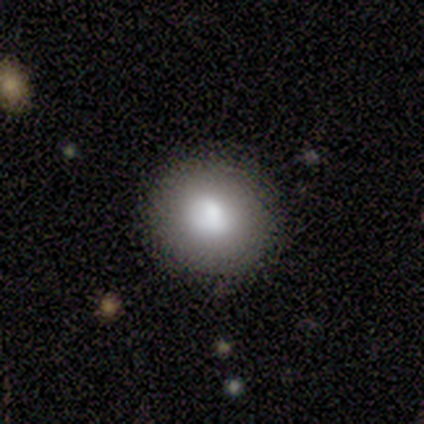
A smooth galaxy with no disk features (80%) that is round (100%). Merging: none (75%).